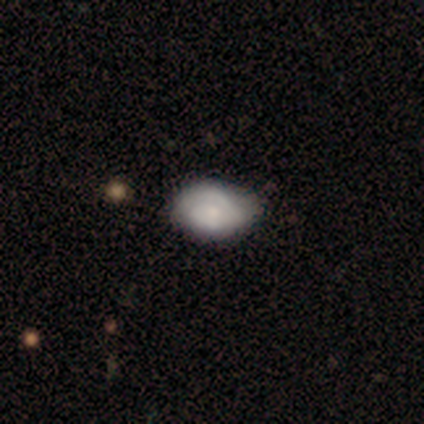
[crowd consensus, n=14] This is possibly a smooth galaxy (50%). How rounded: clearly in between (100%). Merging: likely none (77%).